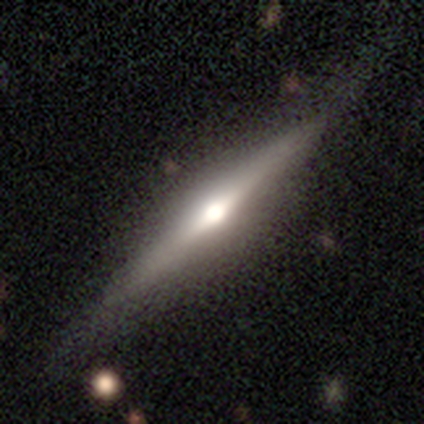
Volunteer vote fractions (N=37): This is clearly a featured or disk galaxy (81%). It is clearly viewed edge-on (97%). Edge-on bulge: clearly rounded (97%). Merging: clearly none (89%).